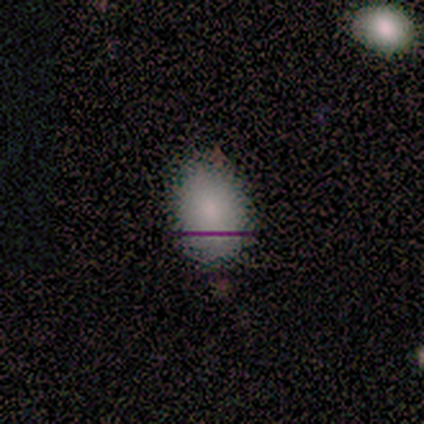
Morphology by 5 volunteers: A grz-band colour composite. It shows a smooth galaxy with no disk features (80%) that is in between round and cigar-shaped (75%). Merging: none (100%).